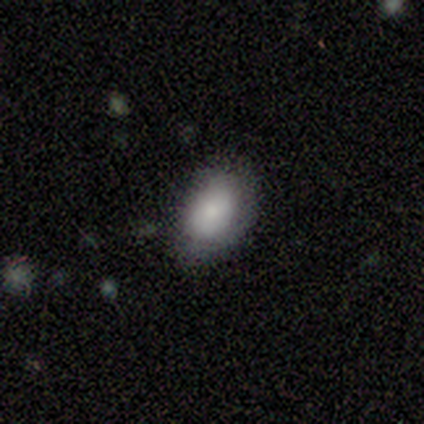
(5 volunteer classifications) This appears to be a smooth galaxy with no disk features (100%) that is in between round and cigar-shaped (80%). Merging: none (100%).